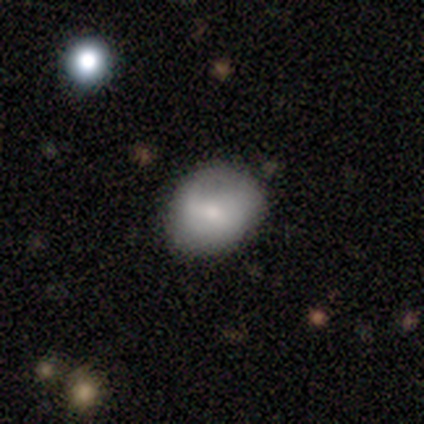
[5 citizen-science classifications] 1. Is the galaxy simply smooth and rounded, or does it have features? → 100% smooth, 0% featured or disk, 0% star or artifact.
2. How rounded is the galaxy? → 60% in between, 40% round, 0% cigar-shaped.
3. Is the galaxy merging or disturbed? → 80% none, 20% minor disturbance, 0% major disturbance, 0% merger.